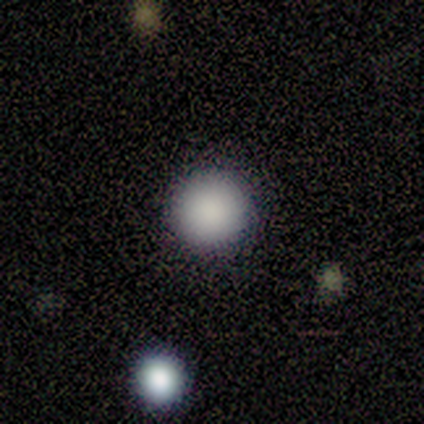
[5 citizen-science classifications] smooth 100%, featured or disk 0%, star or artifact 0%. Down the decision tree: how rounded — round (100%); merging — none (100%).